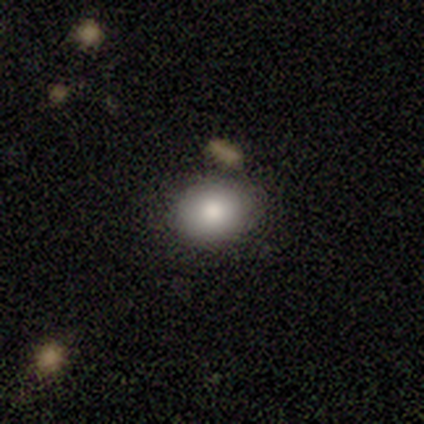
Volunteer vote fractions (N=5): Morphology: type=smooth (80%); roundness=round (75%); merging=none (75%).